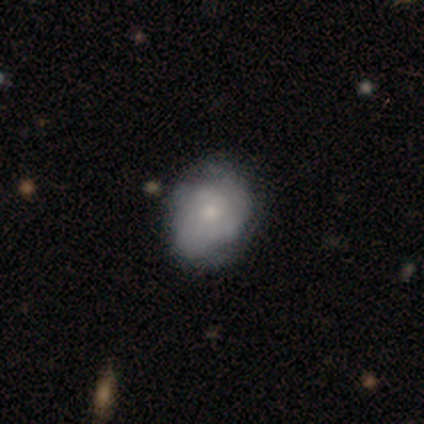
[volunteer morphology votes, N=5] smooth 80%, featured or disk 20%, star or artifact 0%. Down the decision tree: how rounded — round (75%); merging — none (80%).